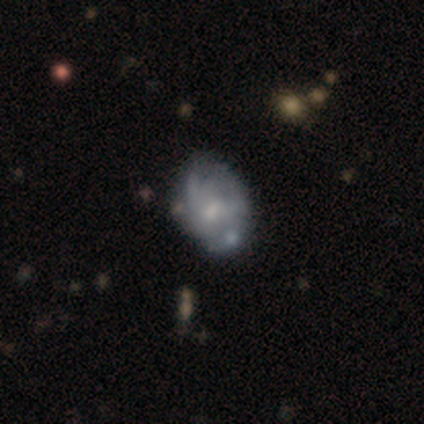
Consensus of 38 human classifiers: smooth_or_featured: featured or disk (p=0.63) [alt: smooth p=0.26]
disk_edge_on: no (p=1.00)
bar: no (p=0.62) [alt: weak p=0.33]
has_spiral_arms: yes (p=0.67) [alt: no p=0.33]
spiral_winding: medium (p=0.44) [alt: tight p=0.38]
spiral_arm_count: can't tell (p=0.88) [alt: 2 p=0.12]
bulge_size: small (p=0.58) [alt: moderate p=0.29]
merging: none (p=0.53) [alt: minor disturbance p=0.38]